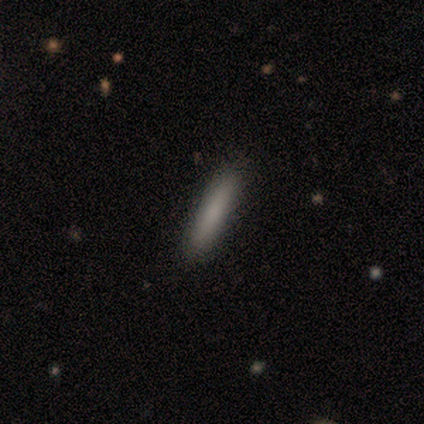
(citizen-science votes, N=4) Q: Smooth or featured?
A: smooth (100%)
Q: How rounded?
A: cigar-shaped (100%)
Q: Merging?
A: none (100%)